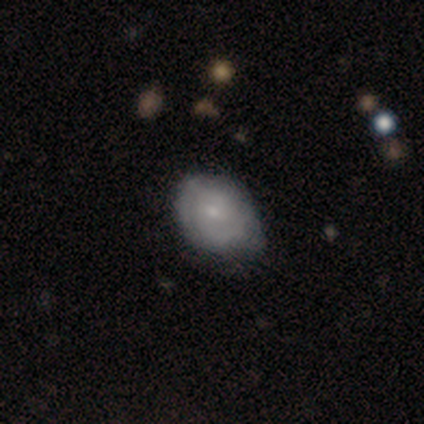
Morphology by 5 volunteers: Smooth or featured: featured or disk — 60% (smooth — 40%)
Edge-on disk: no — 100%
Bar: no — 100%
Spiral arms: yes — 100%
Spiral winding: tight — 67% (medium — 33%)
Spiral arm count: 2 — 67% (can't tell — 33%)
Bulge size: small — 67% (none — 33%)
Merging: none — 60% (minor disturbance — 40%)